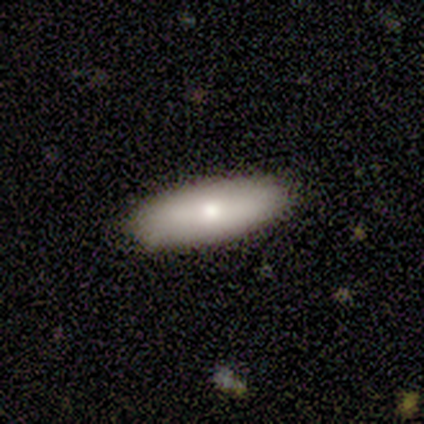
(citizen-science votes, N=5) Smooth or featured? 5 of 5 (100%) said smooth. How rounded? 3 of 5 (60%) said in between. Merging? 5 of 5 (100%) said none.